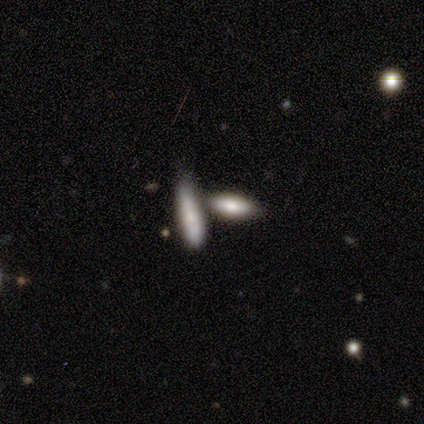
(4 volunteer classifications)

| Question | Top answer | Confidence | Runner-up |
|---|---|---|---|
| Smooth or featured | smooth | 100% | — |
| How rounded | in between | 100% | — |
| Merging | none | 50% | minor disturbance (25%) |